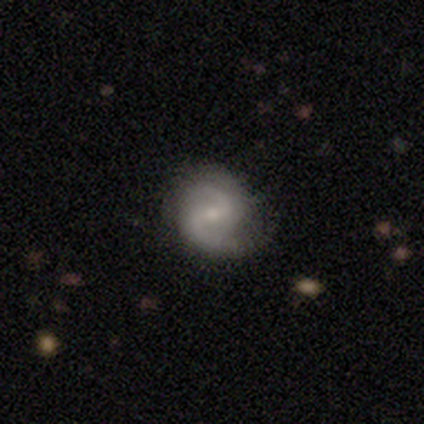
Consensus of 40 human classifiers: This appears to be a featured or disk galaxy (72%) with a weak bar (46%), 2 (92%) medium (65%) spiral arms (93%) and a small central bulge (57%). Merging: none (73%).